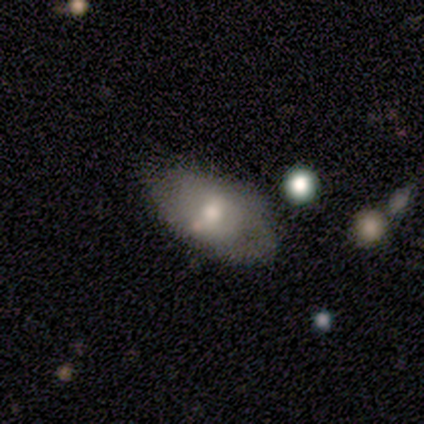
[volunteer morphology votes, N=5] Volunteers were most divided on "merging": none: 60%, minor disturbance: 20%, major disturbance: 20%, merger: 0%. More confident: smooth or featured — smooth (100%); how rounded — in between (80%).